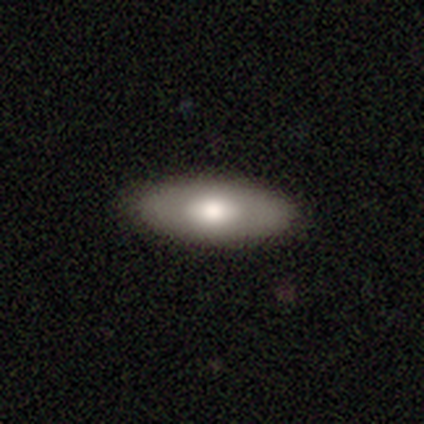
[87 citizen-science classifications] smooth-or-featured: smooth: 68% | featured or disk: 25% | star or artifact: 7%
  how-rounded: in between: 76% | cigar-shaped: 20% | round: 3%
  merging: none: 91% | minor disturbance: 9% | major disturbance: 0% | merger: 0%